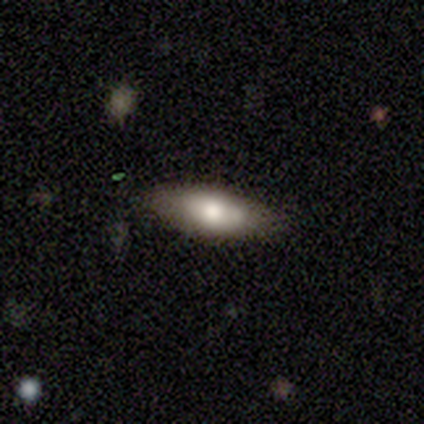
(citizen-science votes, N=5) Smooth or featured? 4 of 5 (80%) said smooth. How rounded? 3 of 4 (75%) said in between. Merging? 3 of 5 (60%) said none.